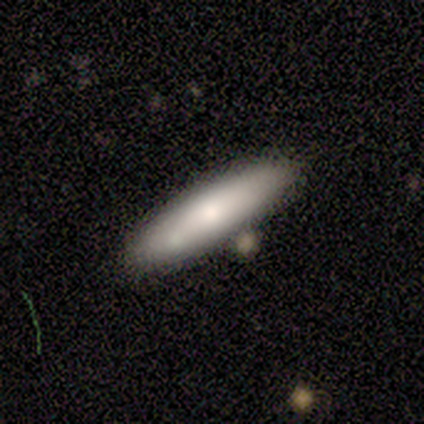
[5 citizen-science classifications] A smooth galaxy with no disk features (60%) that is cigar-shaped (100%).

Vote fractions:
- Smooth or featured? smooth: 60% / featured or disk: 40% / star or artifact: 0%
- How rounded? cigar-shaped: 100% / round: 0% / in between: 0%
- Merging? none: 60% / minor disturbance: 20% / merger: 20% / major disturbance: 0%